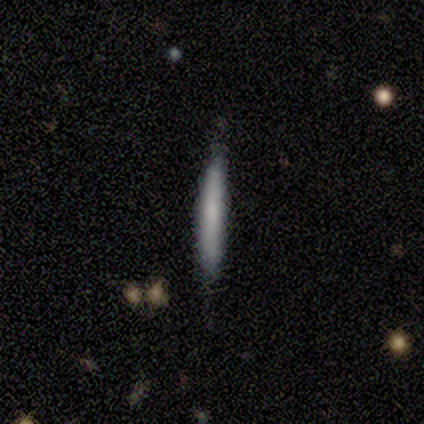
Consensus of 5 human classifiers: This appears to be a smooth galaxy with no disk features (100%) that is cigar-shaped (100%). Merging: none (60%).